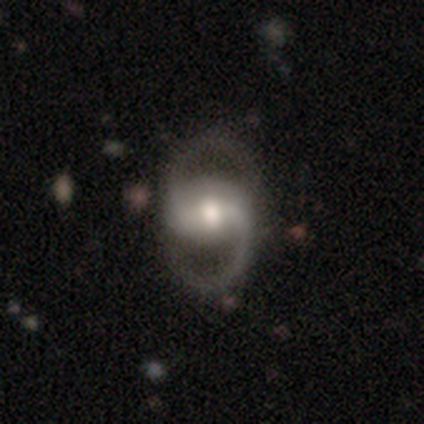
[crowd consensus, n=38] A featured or disk galaxy (89%) with a weak bar (36%), 2 (97%) medium (50%) spiral arms (97%) and a moderate central bulge (64%). Merging: none (86%).